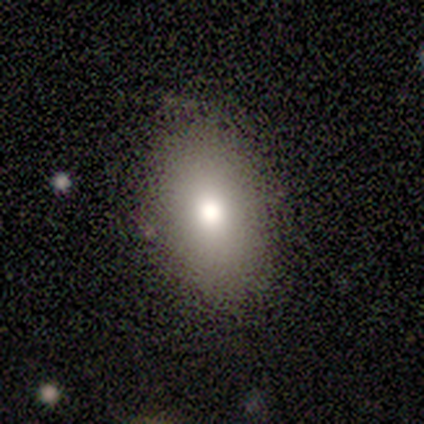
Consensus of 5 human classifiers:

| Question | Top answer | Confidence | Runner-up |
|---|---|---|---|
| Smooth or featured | smooth | 60% | star or artifact (40%) |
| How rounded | in between | 100% | — |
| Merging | none | 100% | — |